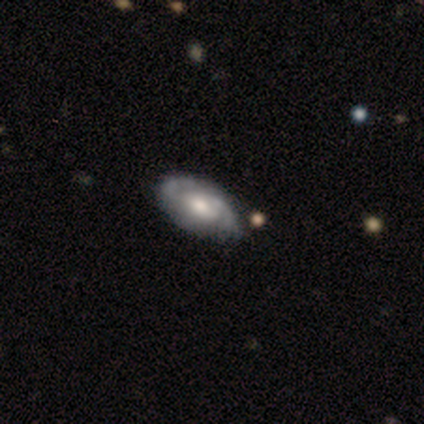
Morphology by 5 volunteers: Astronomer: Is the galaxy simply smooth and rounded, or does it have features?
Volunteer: featured or disk — 100%.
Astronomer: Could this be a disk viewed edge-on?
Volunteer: no — 100%.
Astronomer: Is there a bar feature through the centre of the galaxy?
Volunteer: no — 100%.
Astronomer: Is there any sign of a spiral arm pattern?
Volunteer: yes — 100%.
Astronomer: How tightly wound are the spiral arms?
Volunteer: tight — 40%, tied with medium at 40%.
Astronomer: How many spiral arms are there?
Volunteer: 2 — 100%.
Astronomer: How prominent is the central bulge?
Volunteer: moderate — 80%.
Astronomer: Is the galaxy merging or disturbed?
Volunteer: none — 80%.